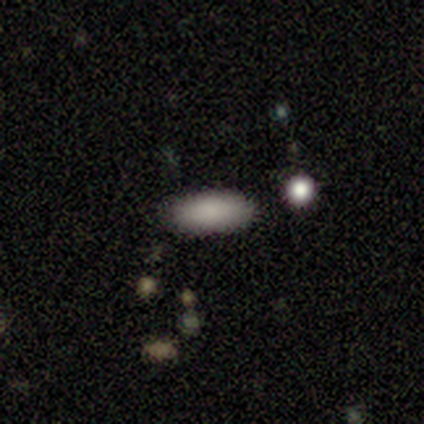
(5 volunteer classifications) Smooth or featured: smooth — 100%
How rounded: in between — 100%
Merging: none — 80% (minor disturbance — 20%)